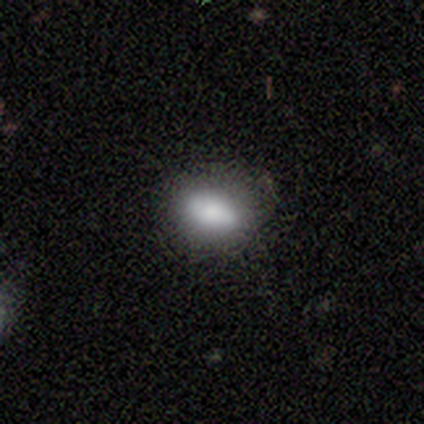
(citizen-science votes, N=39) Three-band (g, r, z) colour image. It shows a smooth galaxy with no disk features (74%) that is in between round and cigar-shaped (90%). Merging: none (78%).